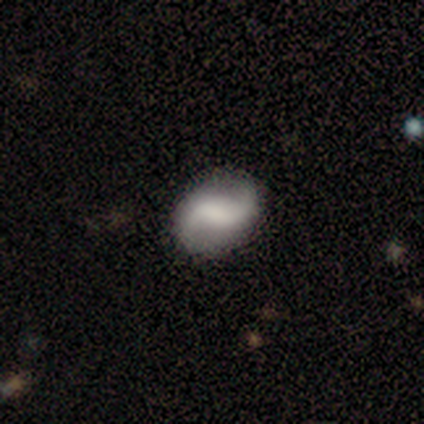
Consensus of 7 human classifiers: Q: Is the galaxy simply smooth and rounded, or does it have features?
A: featured or disk — 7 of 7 (100%).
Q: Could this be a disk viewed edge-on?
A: no — 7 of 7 (100%).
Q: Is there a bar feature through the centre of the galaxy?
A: strong — 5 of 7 (71%).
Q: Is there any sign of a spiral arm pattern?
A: yes — 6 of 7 (86%).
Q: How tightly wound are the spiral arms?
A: loose — 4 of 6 (67%).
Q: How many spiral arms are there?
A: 2 — 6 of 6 (100%).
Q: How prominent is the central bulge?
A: moderate — 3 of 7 (43%).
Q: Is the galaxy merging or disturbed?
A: none — 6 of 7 (86%).